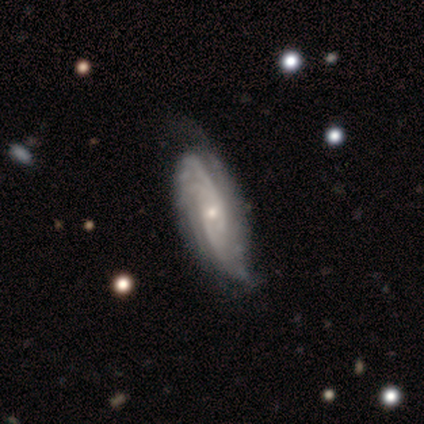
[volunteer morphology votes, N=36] This is clearly a featured or disk galaxy (86%). It is clearly not viewed edge-on (94%). Bar: possibly no (59%). Spiral arm pattern: clearly yes (97%). Spiral arm count: marginally can't tell (43%). Spiral winding: possibly tight (57%). Central bulge: likely small (72%). Merging: possibly minor disturbance (48%).